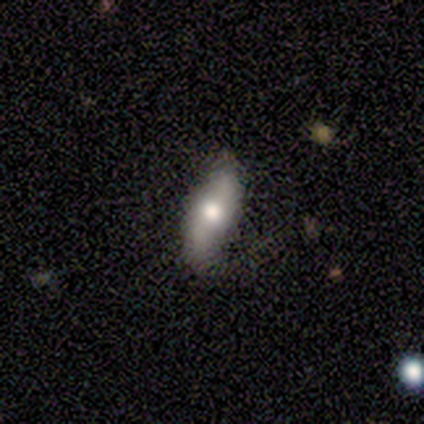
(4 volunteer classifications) Smooth or featured: smooth — 75% (featured or disk — 25%)
How rounded: cigar-shaped — 67% (in between — 33%)
Merging: none — 75% (minor disturbance — 25%)